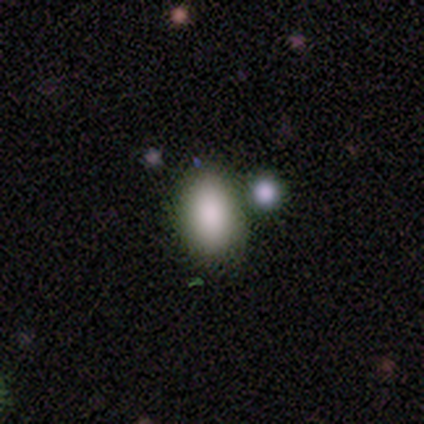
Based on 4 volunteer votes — Smooth or featured?
  - smooth: 100% *
  - featured or disk: 0%
  - star or artifact: 0%
How rounded?
  - in between: 100% *
  - round: 0%
  - cigar-shaped: 0%
Merging?
  - merger: 75% *
  - none: 25%
  - minor disturbance: 0%
  - major disturbance: 0%